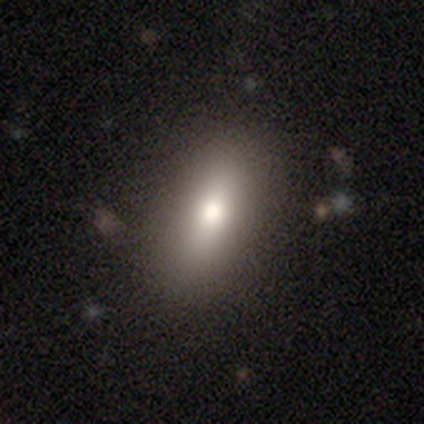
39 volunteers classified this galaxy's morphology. smooth-or-featured: smooth: 79% | featured or disk: 13% | star or artifact: 8%
  how-rounded: in between: 87% | cigar-shaped: 10% | round: 3%
  merging: none: 94% | minor disturbance: 6% | major disturbance: 0% | merger: 0%